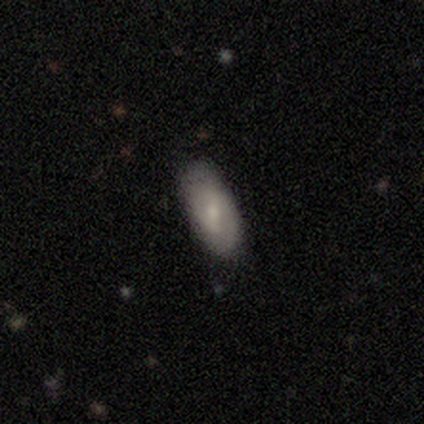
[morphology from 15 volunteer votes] This is possibly a smooth galaxy (53%). How rounded: clearly in between (88%). Merging: likely none (73%).